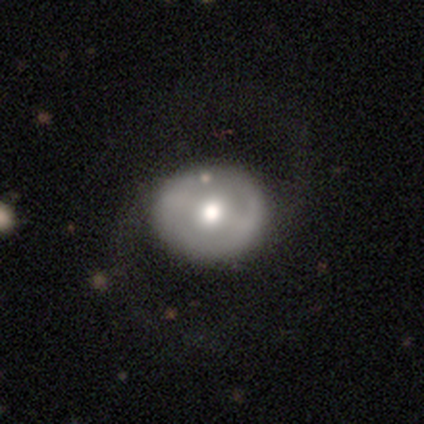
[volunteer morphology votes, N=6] smooth-or-featured: smooth: 50% (tied) | featured or disk: 50% (tied) | star or artifact: 0%
  how-rounded: round: 67% | in between: 33% | cigar-shaped: 0%
  merging: none: 67% | minor disturbance: 17% | major disturbance: 17% | merger: 0%